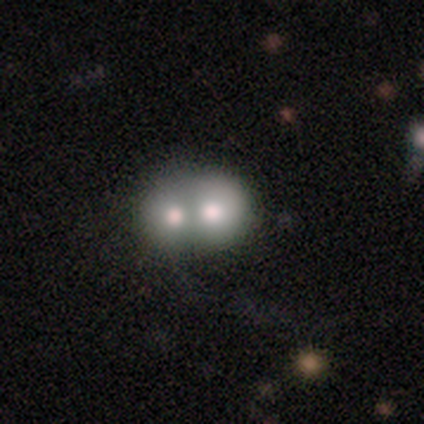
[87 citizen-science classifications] A smooth galaxy with no disk features (59%) that is round (61%). Merging: merger (80%).